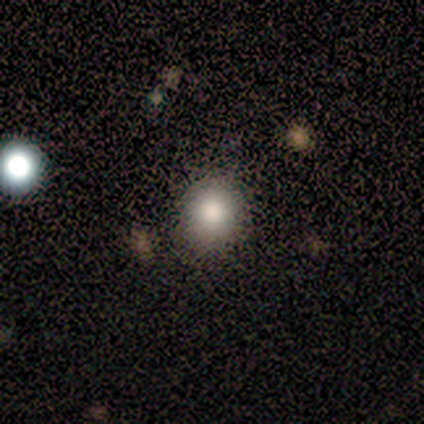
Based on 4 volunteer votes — This is possibly a smooth galaxy (50%, tied with star or artifact). How rounded: clearly round (100%). Merging: clearly none (100%).